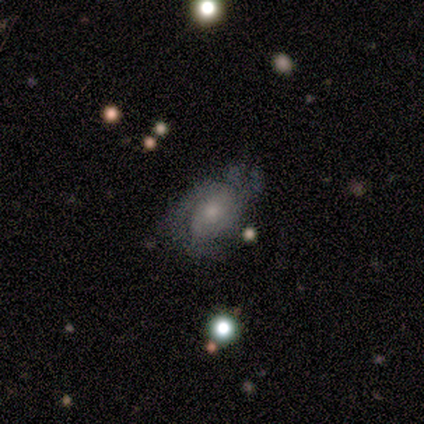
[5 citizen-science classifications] Smooth or featured? featured or disk (100%)
Edge-on disk? no (100%)
Bar? no (60%)
Spiral arms? yes (80%)
Spiral winding? tight (50%)
Spiral arm count? 2 (50%, tied with can't tell)
Bulge size? small (80%)
Merging? none (80%)